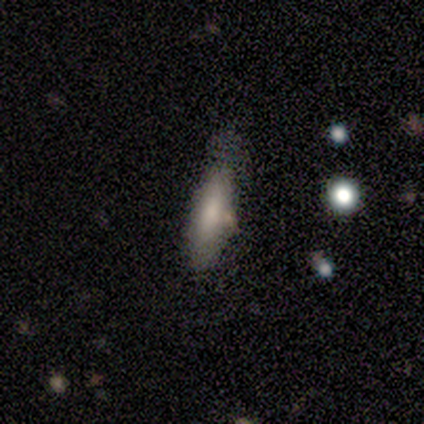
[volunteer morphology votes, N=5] A smooth galaxy with no disk features (80%) that is cigar-shaped (75%). Merging: minor disturbance (80%).